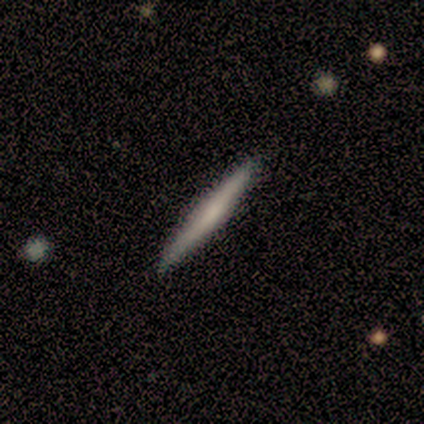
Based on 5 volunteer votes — Smooth or featured?
  - smooth: 80% *
  - featured or disk: 20%
  - star or artifact: 0%
How rounded?
  - cigar-shaped: 100% *
  - round: 0%
  - in between: 0%
Merging?
  - none: 100% *
  - minor disturbance: 0%
  - major disturbance: 0%
  - merger: 0%